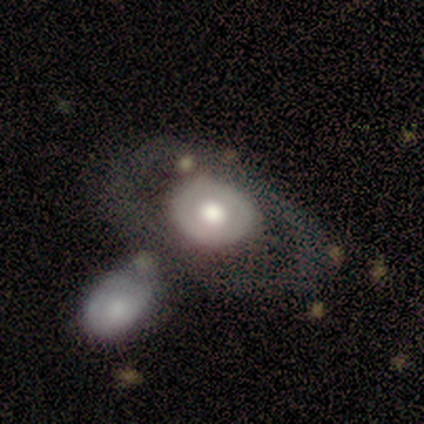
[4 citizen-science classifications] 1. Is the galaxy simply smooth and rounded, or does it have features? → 75% featured or disk, 25% smooth, 0% star or artifact.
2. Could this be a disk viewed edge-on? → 100% no, 0% yes.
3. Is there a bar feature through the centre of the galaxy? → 100% no, 0% strong, 0% weak.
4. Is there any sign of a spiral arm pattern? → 67% no, 33% yes.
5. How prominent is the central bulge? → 67% large, 33% moderate, 0% dominant, 0% small, 0% none.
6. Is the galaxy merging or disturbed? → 50% none, 25% minor disturbance, 25% merger, 0% major disturbance.